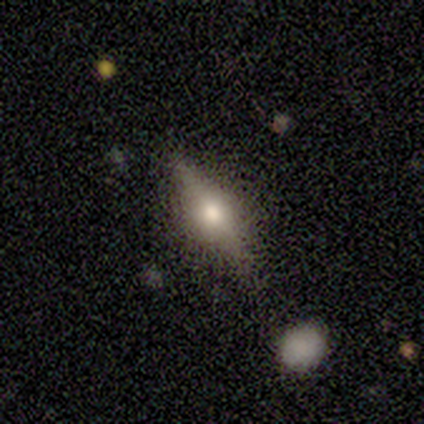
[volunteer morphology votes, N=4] Smooth or featured: smooth — 50% (tied with featured or disk — 50%)
How rounded: in between — 50% (tied with cigar-shaped — 50%)
Merging: none — 50% (minor disturbance — 25%)